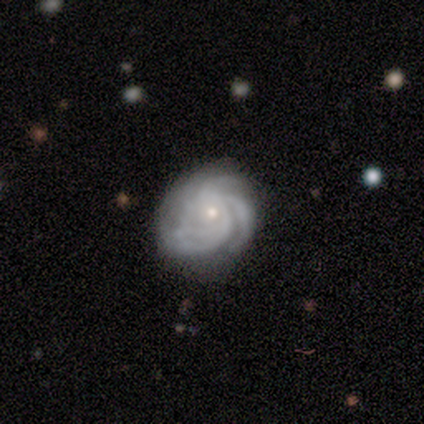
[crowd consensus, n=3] This is likely a featured or disk galaxy (67%). It is clearly not viewed edge-on (100%). Bar: clearly no (100%). Spiral arm pattern: clearly yes (100%). Spiral arm count: clearly can't tell (100%). Spiral winding: clearly tight (100%). Central bulge: clearly small (100%). Merging: possibly none (50%, tied with minor disturbance).